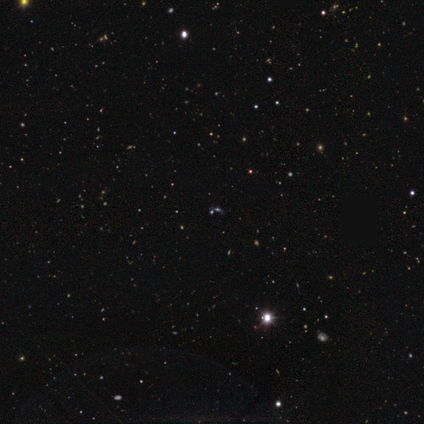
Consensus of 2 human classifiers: Smooth or featured?
  - star or artifact: 100% *
  - smooth: 0%
  - featured or disk: 0%